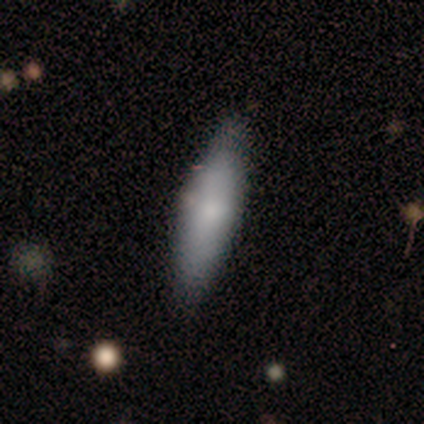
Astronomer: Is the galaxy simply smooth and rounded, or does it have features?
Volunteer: smooth — 60% (runner-up: featured or disk, 40%).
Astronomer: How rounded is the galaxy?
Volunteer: cigar-shaped — 67%.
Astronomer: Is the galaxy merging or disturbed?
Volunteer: none — 100%.